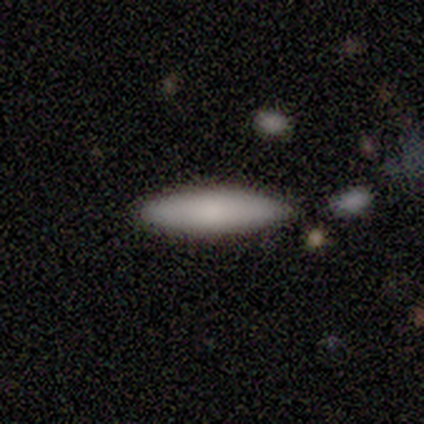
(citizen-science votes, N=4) Volunteers were most divided on "merging" (2-way tie): none: 50%, minor disturbance: 50%, major disturbance: 0%, merger: 0%. More confident: smooth or featured — smooth (75%); how rounded — in between (67%).